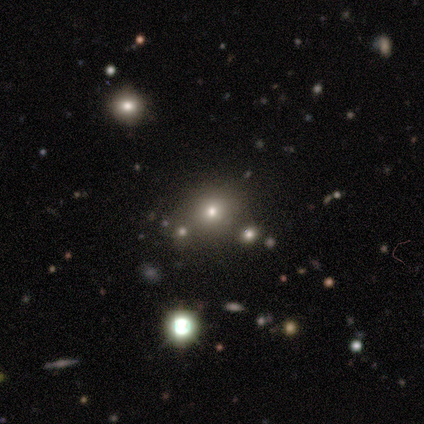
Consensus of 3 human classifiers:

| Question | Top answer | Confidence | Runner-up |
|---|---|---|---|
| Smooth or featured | star or artifact | 67% | smooth (33%) |